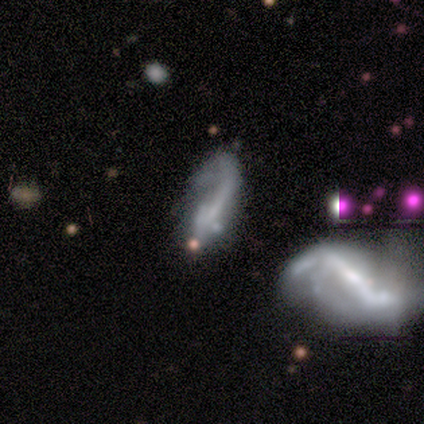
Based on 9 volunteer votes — Smooth or featured? featured or disk (56%)
Edge-on disk? no (100%)
Bar? no (60%)
Spiral arms? no (80%)
Bulge size? none (80%)
Merging? merger (38%)